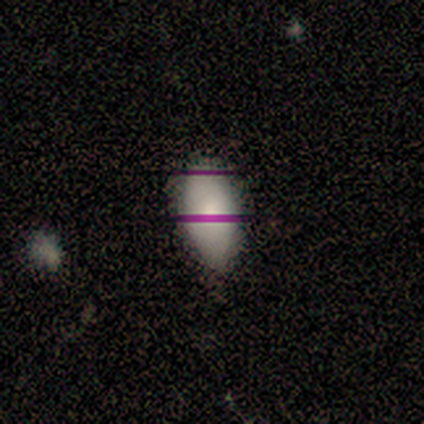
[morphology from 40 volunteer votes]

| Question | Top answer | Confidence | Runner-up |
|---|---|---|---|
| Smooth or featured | smooth | 68% | star or artifact (20%) |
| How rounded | in between | 100% | — |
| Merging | none | 59% | minor disturbance (22%) |